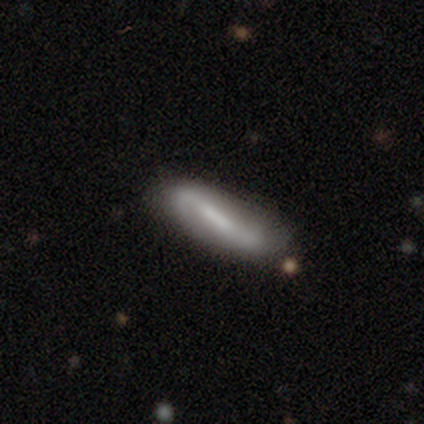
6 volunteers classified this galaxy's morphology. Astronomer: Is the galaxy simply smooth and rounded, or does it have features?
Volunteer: featured or disk — 67%.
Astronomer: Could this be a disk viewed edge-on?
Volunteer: no — 75%.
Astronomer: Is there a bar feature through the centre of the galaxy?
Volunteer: weak — 67%.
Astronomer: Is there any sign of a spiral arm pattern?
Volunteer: no — 67%.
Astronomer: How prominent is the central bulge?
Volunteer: moderate — 67%.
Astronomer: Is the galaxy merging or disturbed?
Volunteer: none — 67%.